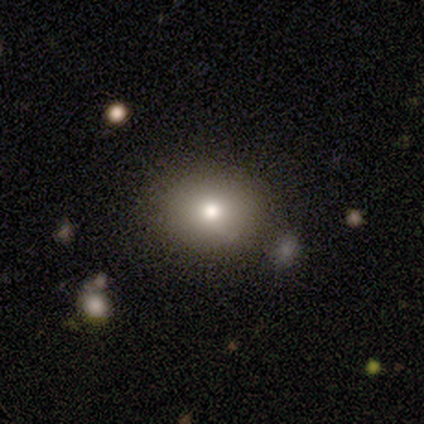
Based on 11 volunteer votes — smooth 73%, star or artifact 18%, featured or disk 9%. Down the decision tree: how rounded — round (100%); merging — none (78%).